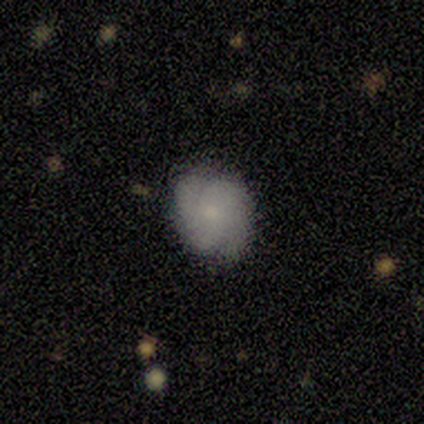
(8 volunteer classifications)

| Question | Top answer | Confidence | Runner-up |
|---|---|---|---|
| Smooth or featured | featured or disk | 75% | smooth (25%) |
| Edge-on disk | no | 100% | — |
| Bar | no | 67% | weak (33%) |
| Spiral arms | yes | 100% | — |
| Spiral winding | medium | 50% | tight (33%) |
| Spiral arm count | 2 | 83% | 4 (17%) |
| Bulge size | small | 83% | none (17%) |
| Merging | none | 88% | major disturbance (12%) |